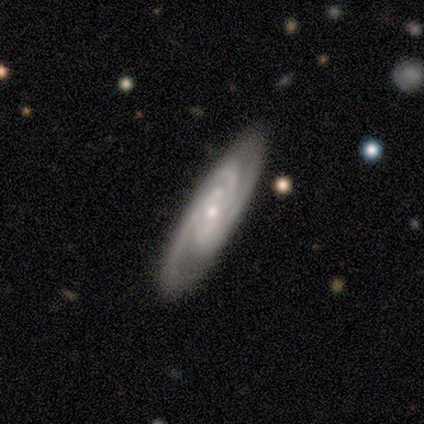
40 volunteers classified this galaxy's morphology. Smooth or featured?
  - featured or disk: 88% *
  - smooth: 8%
  - star or artifact: 5%
Edge-on disk?
  - no: 83% *
  - yes: 17%
Bar?
  - no: 52% *
  - weak: 38%
  - strong: 10%
Spiral arms?
  - yes: 100% *
  - no: 0%
Spiral winding?
  - tight: 55% *
  - medium: 38%
  - loose: 7%
Spiral arm count?
  - 3: 59% *
  - 2: 24%
  - can't tell: 17%
  - 1: 0%
  - 4: 0%
  - more than 4: 0%
Bulge size?
  - small: 55% *
  - moderate: 45%
  - dominant: 0%
  - large: 0%
  - none: 0%
Merging?
  - none: 82% *
  - minor disturbance: 16%
  - merger: 3%
  - major disturbance: 0%